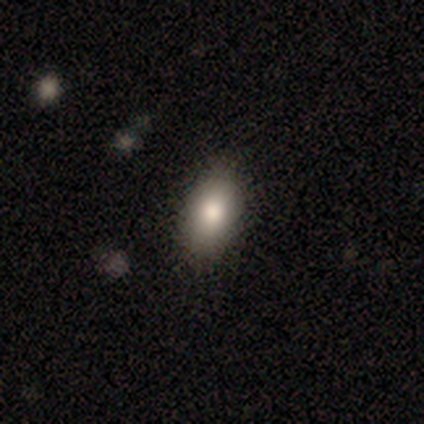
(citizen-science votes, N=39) A smooth galaxy with no disk features (77%) that is in between round and cigar-shaped (87%). Merging: none (86%).